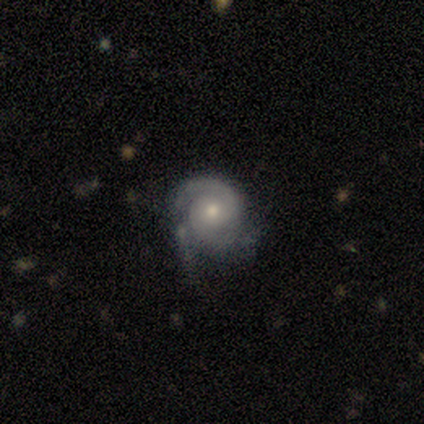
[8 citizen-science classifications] smooth_or_featured: featured or disk (p=0.88) [alt: star or artifact p=0.12]
disk_edge_on: no (p=1.00)
bar: no (p=0.86) [alt: strong p=0.14]
has_spiral_arms: yes (p=1.00)
spiral_winding: tight (p=0.71) [alt: medium p=0.14]
spiral_arm_count: 2 (p=0.71) [alt: 3 p=0.14]
bulge_size: moderate (p=0.71) [alt: small p=0.29]
merging: none (p=0.57) [alt: minor disturbance p=0.43]